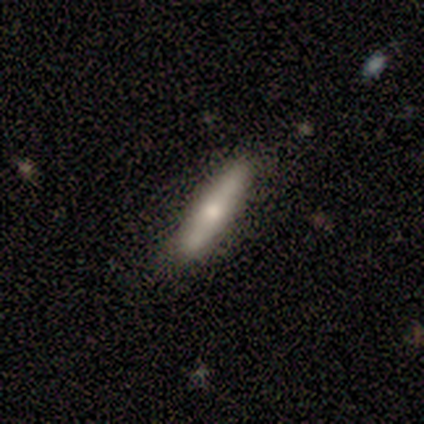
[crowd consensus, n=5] This appears to be a smooth galaxy with no disk features (100%) that is cigar-shaped (100%). Merging: none (80%).